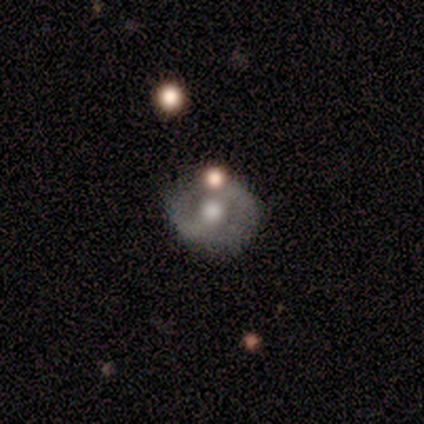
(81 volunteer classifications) Volunteers were most divided on "bar": strong: 38%, weak: 36%, no: 26%. More confident: edge-on disk — no (98%); spiral arm count — 2 (86%); merging — none (68%); spiral arms — yes (68%); bulge size — moderate (68%); smooth or featured — featured or disk (67%); spiral winding — tight (50%).